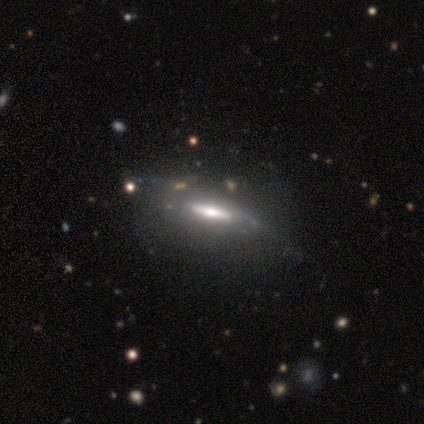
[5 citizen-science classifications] A featured or disk galaxy (60%) with a strong bar (50%, tied with no), loose (100%) spiral arms (50%, tied with no) and a moderate central bulge (100%).

Vote fractions:
- Smooth or featured? featured or disk: 60% / smooth: 40% / star or artifact: 0%
- Edge-on disk? no: 67% / yes: 33%
- Bar? strong: 50% (tied) / no: 50% (tied) / weak: 0%
- Spiral arms? yes: 50% (tied) / no: 50% (tied)
- Spiral winding? loose: 100% / tight: 0% / medium: 0%
- Spiral arm count? can't tell: 100% / 1: 0% / 2: 0% / 3: 0% / 4: 0% / more than 4: 0%
- Bulge size? moderate: 100% / dominant: 0% / large: 0% / small: 0% / none: 0%
- Merging? minor disturbance: 60% / none: 40% / major disturbance: 0% / merger: 0%